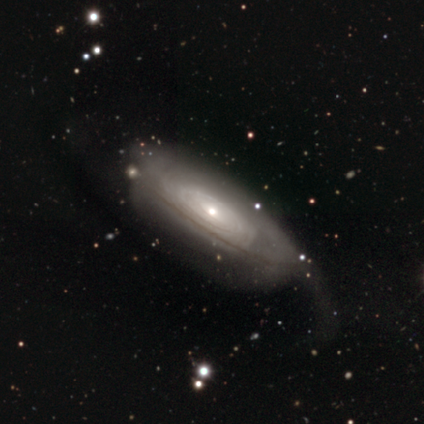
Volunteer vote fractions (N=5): smooth_or_featured: smooth (p=0.60) [alt: featured or disk p=0.40]
how_rounded: in between (p=1.00)
merging: none (p=0.40) [tied with: minor disturbance p=0.40]